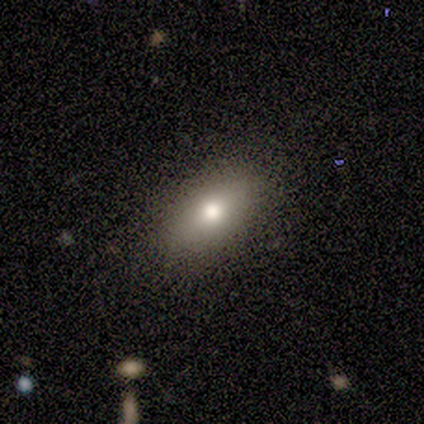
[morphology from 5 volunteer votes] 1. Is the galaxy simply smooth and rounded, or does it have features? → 80% smooth, 20% featured or disk, 0% star or artifact.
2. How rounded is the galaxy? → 100% in between, 0% round, 0% cigar-shaped.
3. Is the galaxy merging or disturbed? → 100% none, 0% minor disturbance, 0% major disturbance, 0% merger.